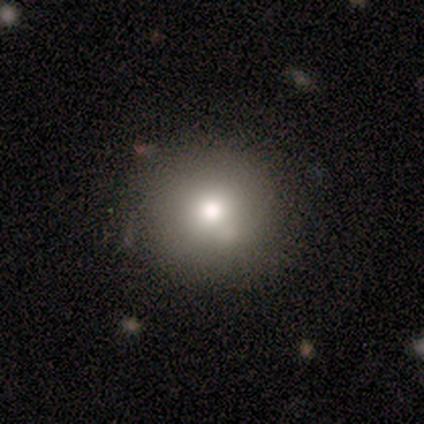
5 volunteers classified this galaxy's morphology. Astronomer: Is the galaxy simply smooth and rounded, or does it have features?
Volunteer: smooth — 60%.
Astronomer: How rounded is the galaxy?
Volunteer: round — 100%.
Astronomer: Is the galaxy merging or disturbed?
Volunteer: none — 75%.